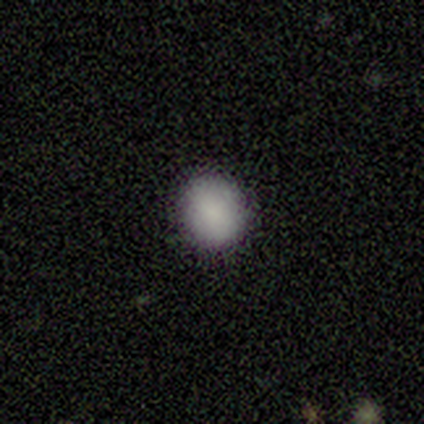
smooth_or_featured: smooth (p=1.00)
how_rounded: round (p=0.80) [alt: in between p=0.20]
merging: none (p=1.00)